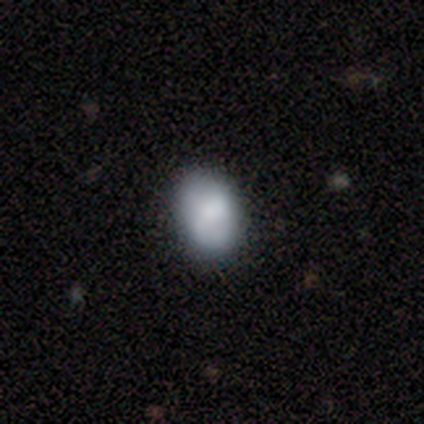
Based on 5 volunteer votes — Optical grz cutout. It shows a smooth galaxy with no disk features (80%) that is round (50%, tied with in between). Merging: minor disturbance (60%).